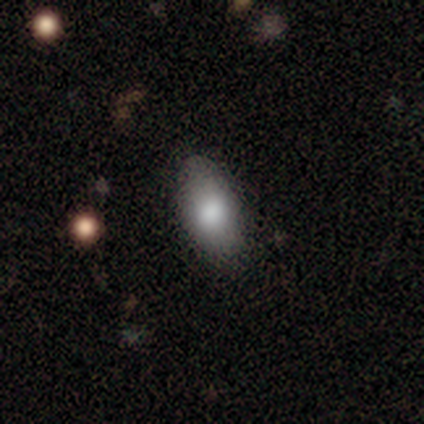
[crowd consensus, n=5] This is clearly a smooth galaxy (100%). How rounded: clearly in between (100%). Merging: clearly none (100%).